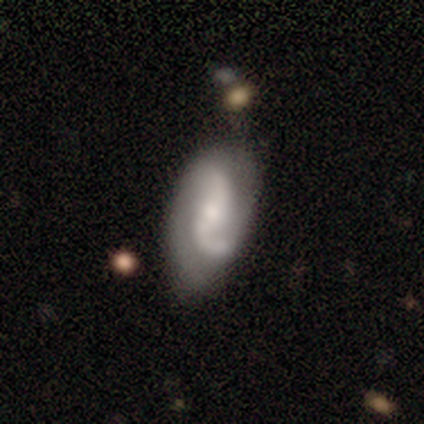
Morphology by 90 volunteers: A featured or disk galaxy (81%) with a weak bar (46%), 2 (88%) loose (61%) spiral arms (93%) and a small central bulge (55%). Merging: none (55%).